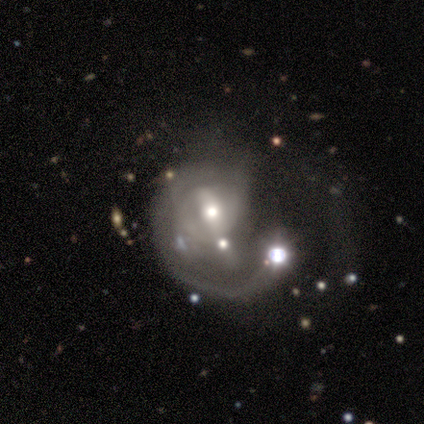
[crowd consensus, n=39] Smooth or featured? featured or disk (72%)
Edge-on disk? no (100%)
Bar? no (39%)
Spiral arms? yes (79%)
Spiral winding? loose (50%)
Spiral arm count? 1 (64%)
Bulge size? moderate (50%)
Merging? major disturbance (43%)